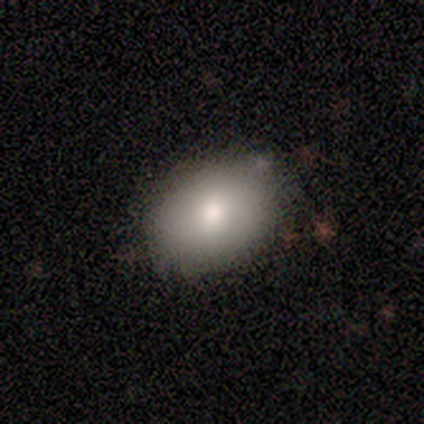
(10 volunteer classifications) A smooth galaxy with no disk features (80%) that is in between round and cigar-shaped (75%). Merging: none (100%).